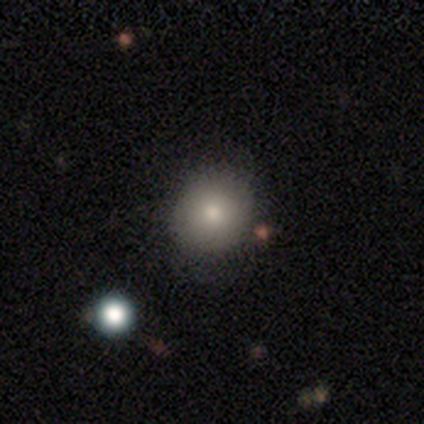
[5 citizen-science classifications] Smooth or featured: star or artifact — 60% (smooth — 40%)